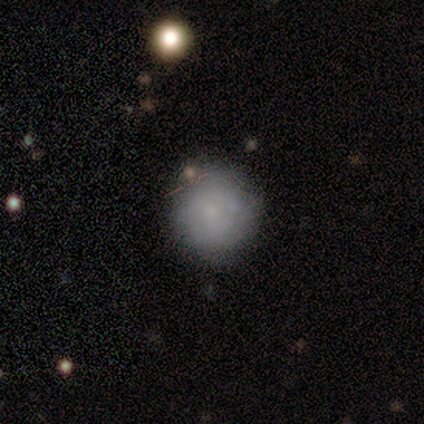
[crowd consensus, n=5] smooth_or_featured: smooth (p=0.80) [alt: featured or disk p=0.20]
how_rounded: round (p=0.75) [alt: in between p=0.25]
merging: none (p=0.60) [alt: minor disturbance p=0.20]